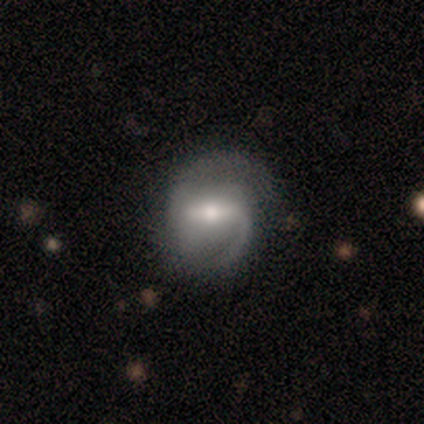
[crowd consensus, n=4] Q: Smooth or featured?
A: featured or disk (100%)
Q: Edge-on disk?
A: no (100%)
Q: Bar?
A: strong (100%)
Q: Spiral arms?
A: yes (100%)
Q: Spiral winding?
A: medium (50%); runner-up: tight (25%)
Q: Spiral arm count?
A: 1 (50%); tied with: 2 (50%)
Q: Bulge size?
A: moderate (100%)
Q: Merging?
A: none (75%); runner-up: minor disturbance (25%)